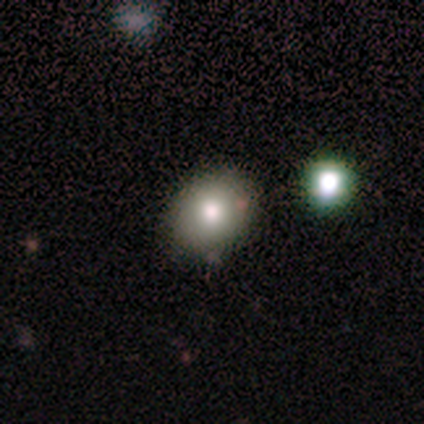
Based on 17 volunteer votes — Volunteers were most divided on "how rounded": round: 62%, in between: 38%, cigar-shaped: 0%. More confident: merging — none (93%); smooth or featured — smooth (76%).